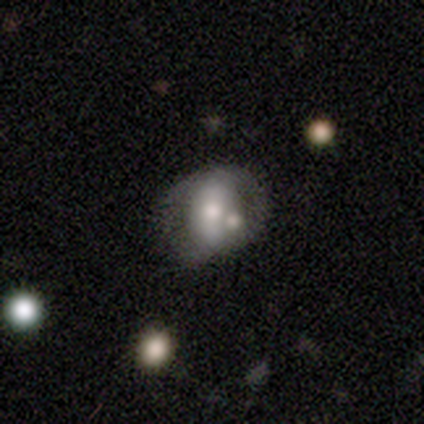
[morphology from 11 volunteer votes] A smooth galaxy with no disk features (55%) that is in between round and cigar-shaped (67%).

Vote fractions:
- Smooth or featured? smooth: 55% / featured or disk: 36% / star or artifact: 9%
- How rounded? in between: 67% / round: 33% / cigar-shaped: 0%
- Merging? none: 40% / minor disturbance: 30% / merger: 30% / major disturbance: 0%